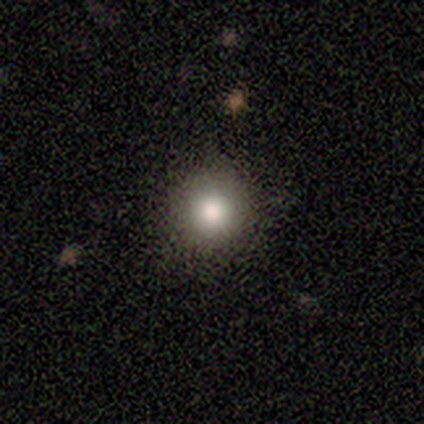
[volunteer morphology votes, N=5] Overall: smooth (60%; star or artifact 40%). How rounded: round (100%). Merging: none (67%; minor disturbance 33%).